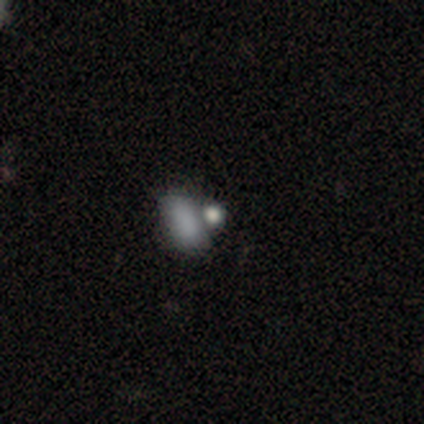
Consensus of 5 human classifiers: smooth_or_featured: smooth (p=0.80) [alt: star or artifact p=0.20]
how_rounded: in between (p=0.75) [alt: round p=0.25]
merging: none (p=0.75) [alt: merger p=0.25]